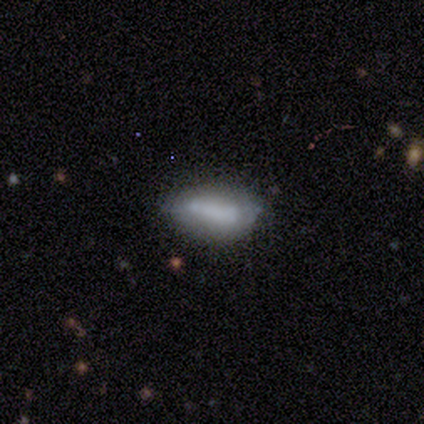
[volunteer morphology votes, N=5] type=smooth (100%); roundness=in between (80%); merging=none (40%, tied with minor disturbance).